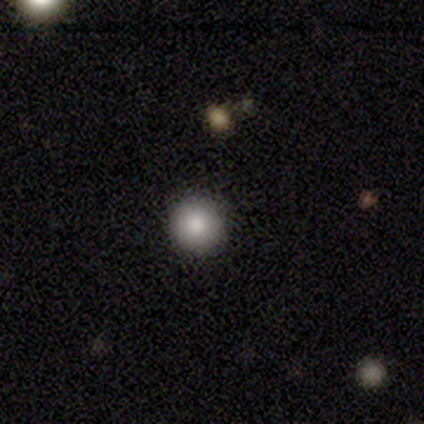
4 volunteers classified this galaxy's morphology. Smooth or featured?
  - smooth: 100% *
  - featured or disk: 0%
  - star or artifact: 0%
How rounded?
  - round: 100% *
  - in between: 0%
  - cigar-shaped: 0%
Merging?
  - none: 75% *
  - minor disturbance: 25%
  - major disturbance: 0%
  - merger: 0%